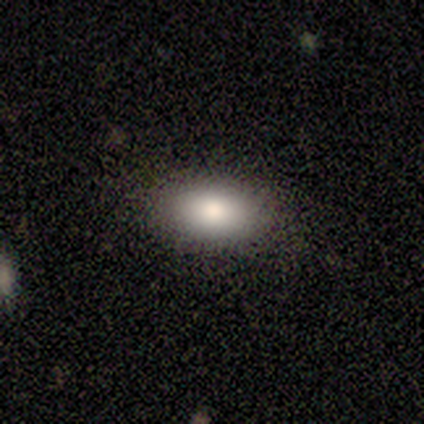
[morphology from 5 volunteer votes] smooth-or-featured: smooth: 60% | featured or disk: 20% | star or artifact: 20%
  how-rounded: in between: 100% | round: 0% | cigar-shaped: 0%
  merging: none: 75% | minor disturbance: 25% | major disturbance: 0% | merger: 0%